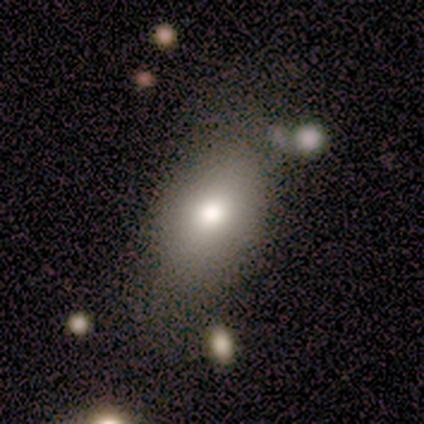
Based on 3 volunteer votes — This appears to be a smooth galaxy with no disk features (100%) that is in between round and cigar-shaped (100%). Merging: none (100%).